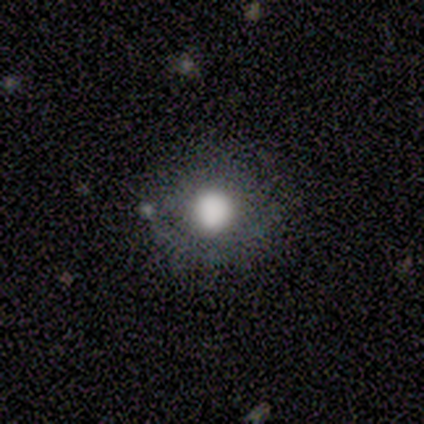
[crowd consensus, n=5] smooth_or_featured: smooth (p=0.80) [alt: featured or disk p=0.20]
how_rounded: round (p=0.75) [alt: in between p=0.25]
merging: none (p=0.60) [alt: minor disturbance p=0.20]